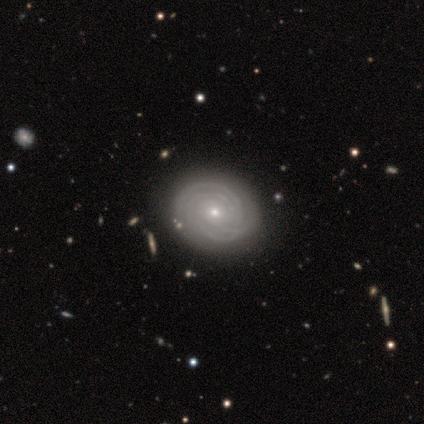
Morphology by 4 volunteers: Smooth or featured?
  - featured or disk: 75% *
  - star or artifact: 25%
  - smooth: 0%
Edge-on disk?
  - no: 100% *
  - yes: 0%
Bar?
  - no: 67% *
  - weak: 33%
  - strong: 0%
Spiral arms?
  - yes: 100% *
  - no: 0%
Spiral winding?
  - tight: 100% *
  - medium: 0%
  - loose: 0%
Spiral arm count?
  - 2: 33% * (tied)
  - more than 4: 33% * (tied)
  - can't tell: 33% * (tied)
  - 1: 0%
  - 3: 0%
  - 4: 0%
Bulge size?
  - moderate: 67% *
  - small: 33%
  - dominant: 0%
  - large: 0%
  - none: 0%
Merging?
  - none: 100% *
  - minor disturbance: 0%
  - major disturbance: 0%
  - merger: 0%